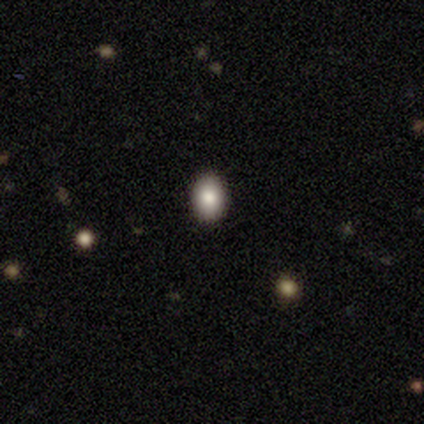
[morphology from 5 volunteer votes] This appears to be a smooth galaxy with no disk features (80%) that is round (50%, tied with in between). Merging: none (100%).